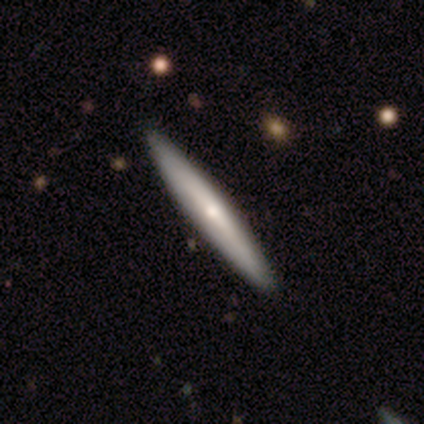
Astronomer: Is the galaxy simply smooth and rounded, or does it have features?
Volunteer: smooth — 53% (runner-up: featured or disk, 45%).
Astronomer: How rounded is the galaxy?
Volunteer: cigar-shaped — 98%.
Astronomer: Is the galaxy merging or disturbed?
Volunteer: none — 61%.